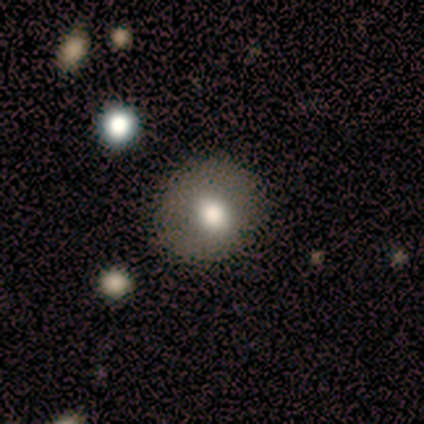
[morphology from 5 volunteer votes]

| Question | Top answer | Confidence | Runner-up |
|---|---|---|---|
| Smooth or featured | smooth | 100% | — |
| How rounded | round | 100% | — |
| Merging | none | 100% | — |